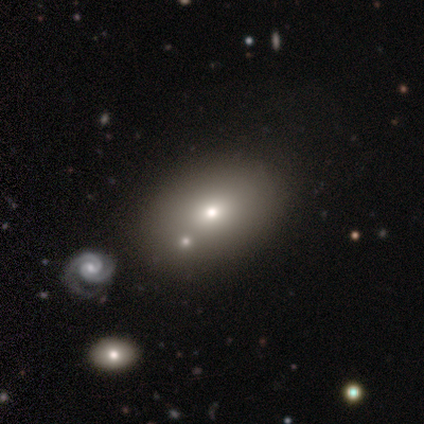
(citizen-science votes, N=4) Smooth or featured?
  - featured or disk: 50% *
  - smooth: 25%
  - star or artifact: 25%
Edge-on disk?
  - yes: 50% * (tied)
  - no: 50% * (tied)
Edge-on bulge?
  - rounded: 100% *
  - boxy: 0%
  - none: 0%
Merging?
  - none: 33% * (tied)
  - minor disturbance: 33% * (tied)
  - major disturbance: 33% * (tied)
  - merger: 0%